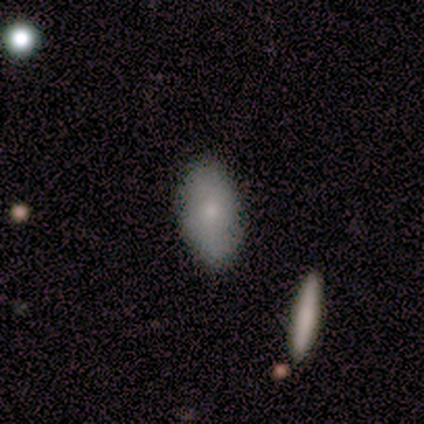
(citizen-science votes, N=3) This is clearly a smooth galaxy (100%). How rounded: likely in between (67%). Merging: likely none (67%).